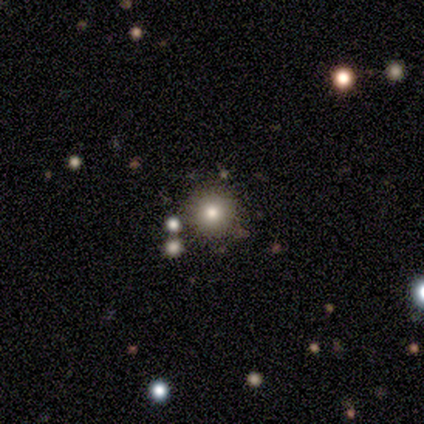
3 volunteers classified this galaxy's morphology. This is clearly a smooth galaxy (100%). How rounded: clearly round (100%). Merging: likely none (67%).